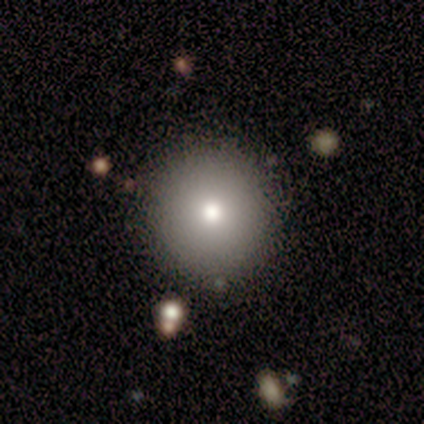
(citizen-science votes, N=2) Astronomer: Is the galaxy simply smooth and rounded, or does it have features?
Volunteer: smooth — 100%.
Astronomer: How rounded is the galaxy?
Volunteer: round — 100%.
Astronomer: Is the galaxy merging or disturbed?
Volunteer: none — 100%.